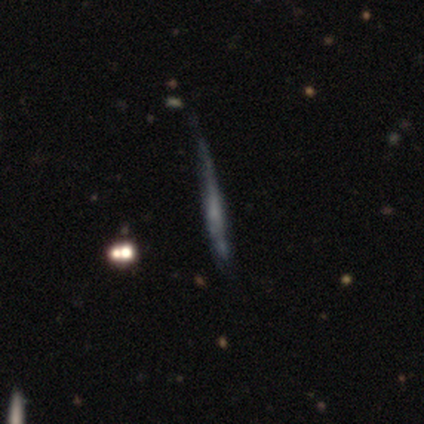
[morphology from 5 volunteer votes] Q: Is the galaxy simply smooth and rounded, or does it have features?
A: smooth — 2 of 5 (40%, tied with featured or disk).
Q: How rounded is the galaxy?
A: cigar-shaped — 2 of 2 (100%).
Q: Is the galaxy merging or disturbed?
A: major disturbance — 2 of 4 (50%).